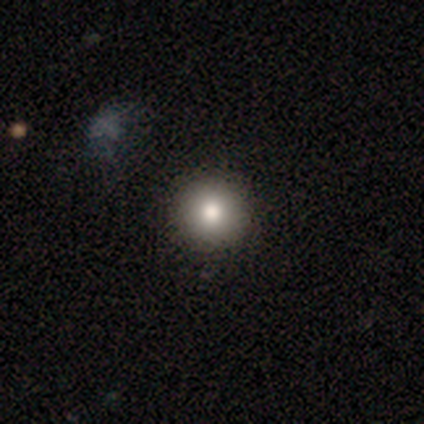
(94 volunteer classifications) A smooth galaxy with no disk features (78%) that is round (97%).

Vote fractions:
- Smooth or featured? smooth: 78% / featured or disk: 12% / star or artifact: 11%
- How rounded? round: 97% / in between: 3% / cigar-shaped: 0%
- Merging? none: 94% / minor disturbance: 6% / major disturbance: 0% / merger: 0%